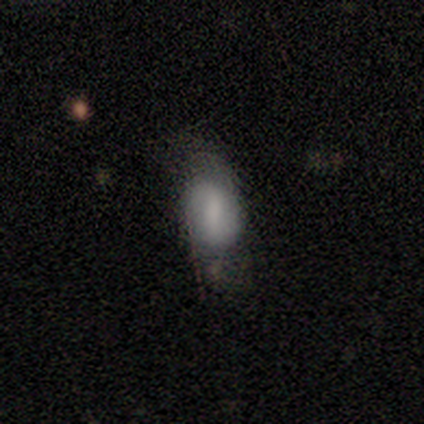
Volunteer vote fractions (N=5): smooth 80%, featured or disk 20%, star or artifact 0%. Down the decision tree: how rounded — in between (100%); merging — minor disturbance (60%).